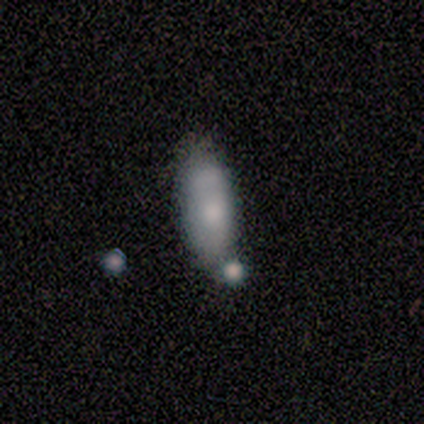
Volunteers were most divided on "smooth or featured": smooth: 60%, featured or disk: 40%, star or artifact: 0%. Remaining: how rounded — in between (100%); merging — none (40%).